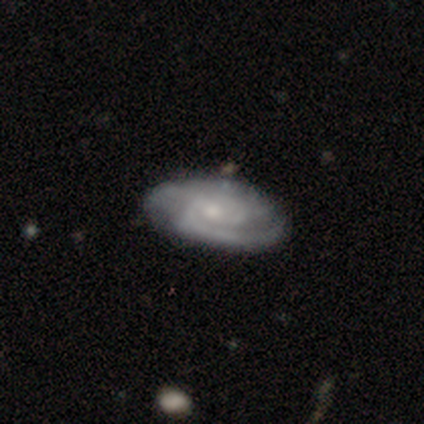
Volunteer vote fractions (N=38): Volunteers were most divided on "spiral winding": medium: 60%, tight: 40%, loose: 0%. Remaining: spiral arms — yes (100%); edge-on disk — no (97%); smooth or featured — featured or disk (82%); bar — no (73%); bulge size — small (67%); spiral arm count — 2 (60%); merging — none (47%).